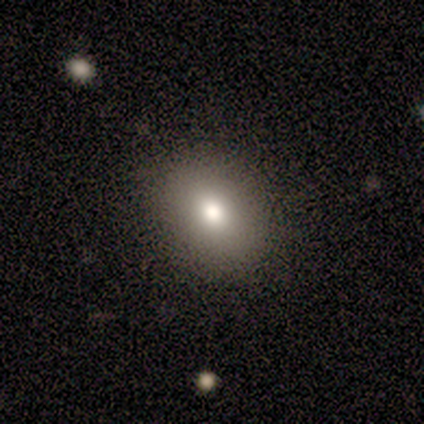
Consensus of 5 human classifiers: Volunteers were most divided on "how rounded": in between: 80%, round: 20%, cigar-shaped: 0%. More confident: smooth or featured — smooth (100%); merging — none (100%).